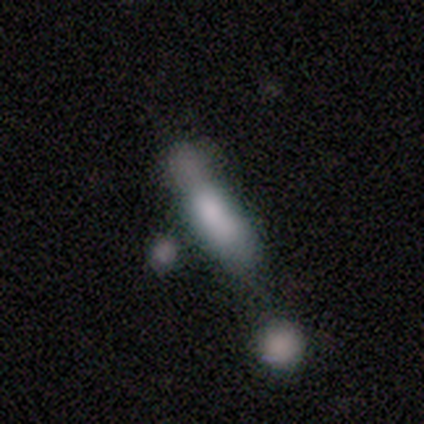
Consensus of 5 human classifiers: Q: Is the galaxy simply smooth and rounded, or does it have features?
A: smooth — 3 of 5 (60%).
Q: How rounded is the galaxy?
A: in between — 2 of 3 (67%).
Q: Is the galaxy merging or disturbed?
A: none — 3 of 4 (75%).